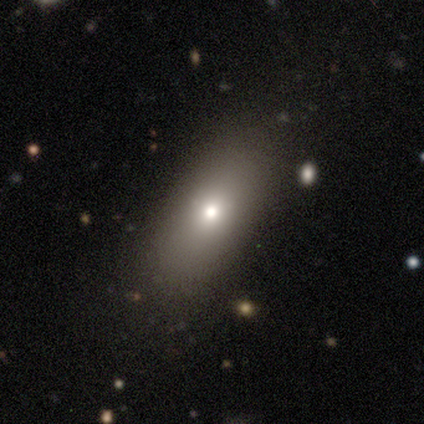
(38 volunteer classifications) A smooth galaxy with no disk features (71%) that is in between round and cigar-shaped (78%). Merging: none (65%).